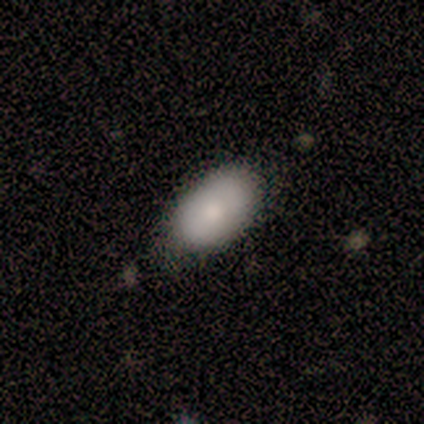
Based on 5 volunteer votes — Smooth or featured? smooth (100%)
How rounded? in between (100%)
Merging? none (60%)